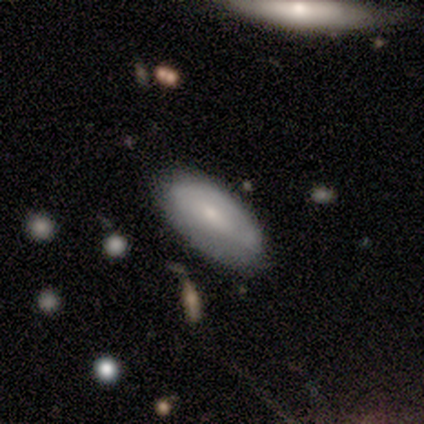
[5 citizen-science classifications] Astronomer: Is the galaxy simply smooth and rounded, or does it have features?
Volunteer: smooth — 80%.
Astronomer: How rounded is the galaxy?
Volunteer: in between — 100%.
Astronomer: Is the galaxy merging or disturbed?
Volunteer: none — 80%.